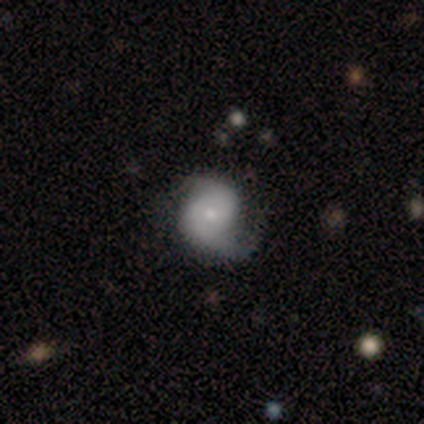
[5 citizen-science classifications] This appears to be a featured or disk galaxy (60%) with no bar (67%), 2 (67%) loose (67%) spiral arms (100%) and a moderate central bulge (67%). Merging: none (40%, tied with major disturbance).